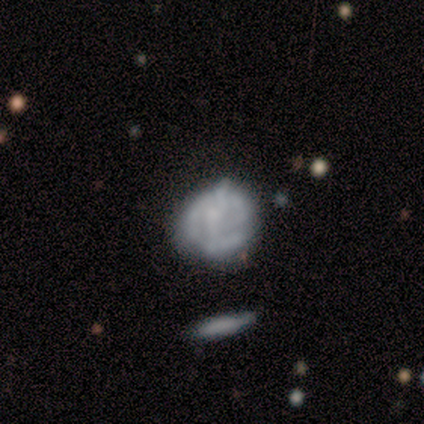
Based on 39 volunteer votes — Smooth or featured? 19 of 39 (49%) said featured or disk. Edge-on disk? 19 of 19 (100%) said no. Bar? 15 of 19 (79%) said no. Spiral arms? 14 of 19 (74%) said no. Bulge size? 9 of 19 (47%) said none. Merging? 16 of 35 (46%) said none.